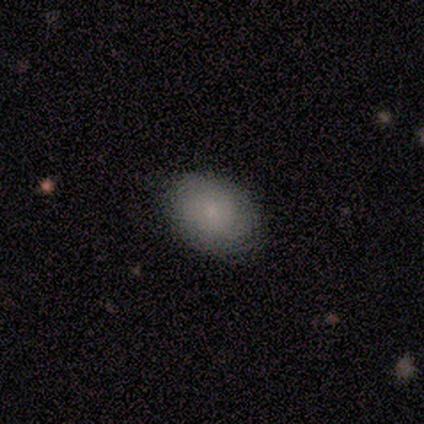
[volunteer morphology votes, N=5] Q: Smooth or featured?
A: smooth (100%)
Q: How rounded?
A: in between (100%)
Q: Merging?
A: none (60%); runner-up: minor disturbance (20%)